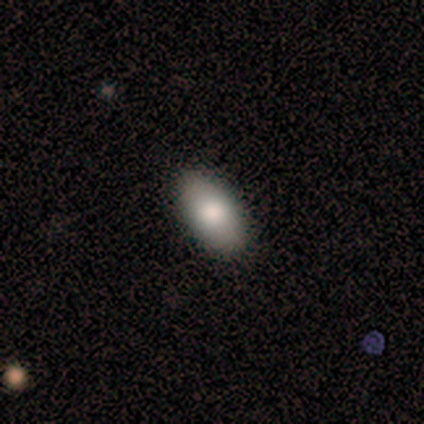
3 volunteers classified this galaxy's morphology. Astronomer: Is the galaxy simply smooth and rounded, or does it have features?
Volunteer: smooth — 67%.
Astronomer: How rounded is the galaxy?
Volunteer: in between — 100%.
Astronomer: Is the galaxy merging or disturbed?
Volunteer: none — 50%, tied with minor disturbance at 50%.